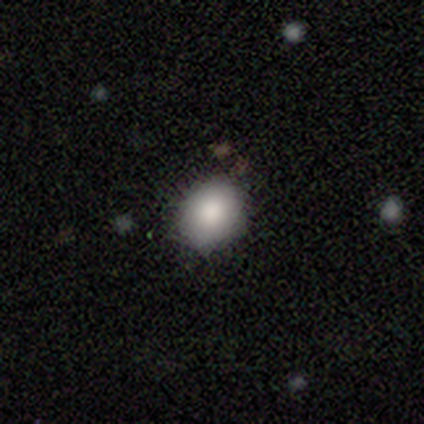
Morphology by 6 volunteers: Smooth or featured?
  - smooth: 83% *
  - star or artifact: 17%
  - featured or disk: 0%
How rounded?
  - round: 60% *
  - in between: 40%
  - cigar-shaped: 0%
Merging?
  - none: 80% *
  - minor disturbance: 20%
  - major disturbance: 0%
  - merger: 0%